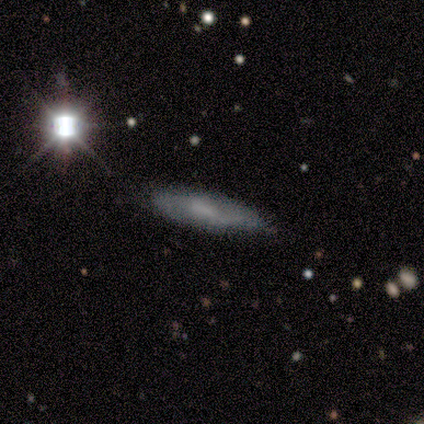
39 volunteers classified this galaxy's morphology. type=smooth (46%); roundness=cigar-shaped (78%); merging=none (83%).